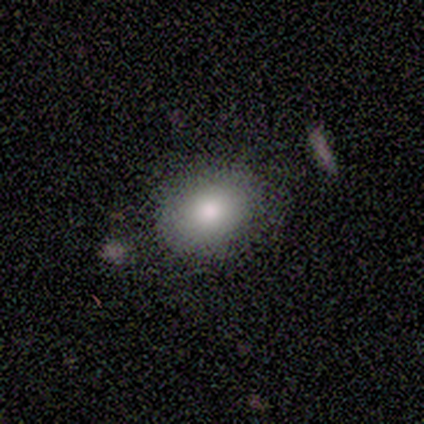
A smooth galaxy with no disk features (75%) that is round (67%).

Vote fractions:
- Smooth or featured? smooth: 75% / featured or disk: 25% / star or artifact: 0%
- How rounded? round: 67% / in between: 33% / cigar-shaped: 0%
- Merging? none: 100% / minor disturbance: 0% / major disturbance: 0% / merger: 0%